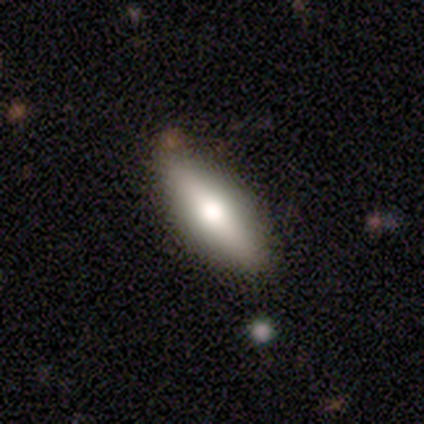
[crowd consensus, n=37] A smooth galaxy with no disk features (65%) that is in between round and cigar-shaped (75%). Merging: none (83%).